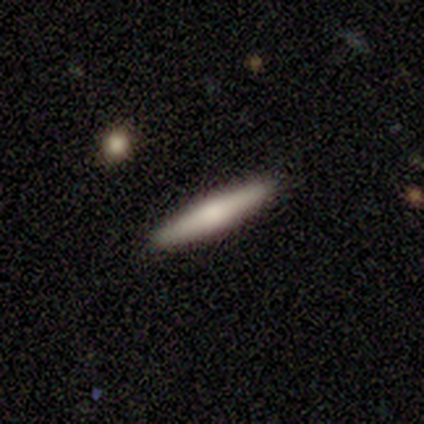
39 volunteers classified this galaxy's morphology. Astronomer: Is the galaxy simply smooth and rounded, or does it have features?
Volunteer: smooth — 51% (runner-up: featured or disk, 46%).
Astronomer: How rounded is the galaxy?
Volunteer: cigar-shaped — 90%.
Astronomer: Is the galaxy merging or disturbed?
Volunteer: none — 87%.